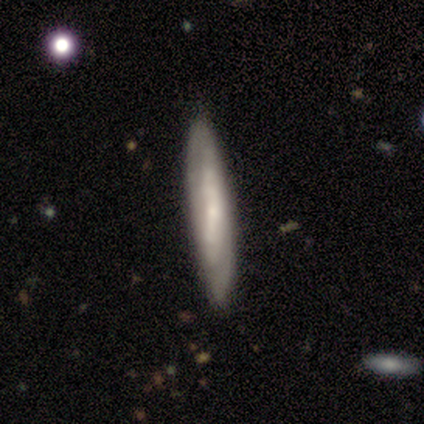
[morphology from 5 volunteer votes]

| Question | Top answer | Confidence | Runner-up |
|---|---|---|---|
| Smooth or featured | smooth | 60% | featured or disk (40%) |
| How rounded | cigar-shaped | 100% | — |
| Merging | none | 80% | merger (20%) |